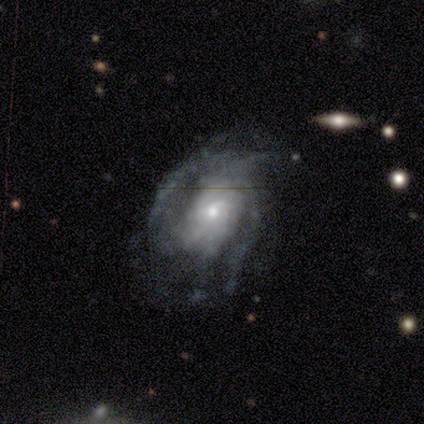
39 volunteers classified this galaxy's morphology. featured or disk 87%, star or artifact 8%, smooth 5%. Down the decision tree: edge-on disk — no (97%); bar — no (55%); spiral arms — yes (94%); spiral arm count — can't tell (39%); spiral winding — tight (58%); bulge size — small (55%); merging — none (56%).